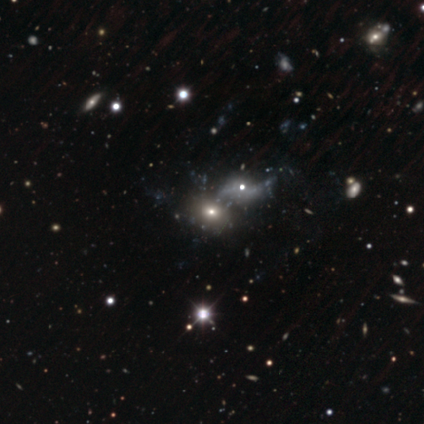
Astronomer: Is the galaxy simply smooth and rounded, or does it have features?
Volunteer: smooth — 50%.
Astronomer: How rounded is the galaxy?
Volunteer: round — 100%.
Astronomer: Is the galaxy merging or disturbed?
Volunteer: none — 33%, tied with minor disturbance and major disturbance at 33%.